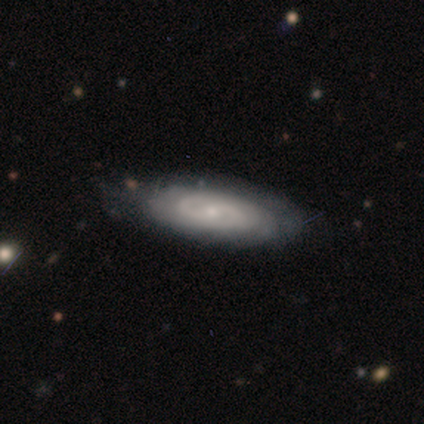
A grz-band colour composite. It shows a featured or disk galaxy (60%) with a strong bar (33%, tied with weak and no), tight (67%) spiral arms (100%) and a moderate central bulge (33%, tied with small and none). Merging: minor disturbance (60%).